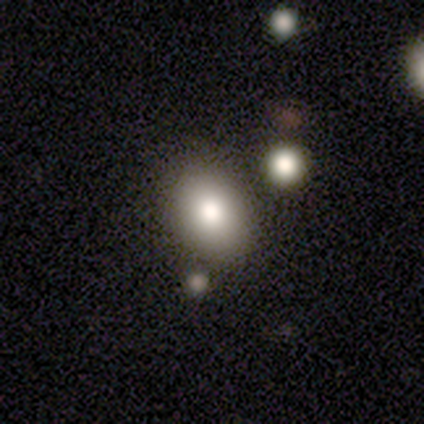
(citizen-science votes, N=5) smooth 80%, featured or disk 20%, star or artifact 0%. Down the decision tree: how rounded — in between (50%); merging — none (80%).